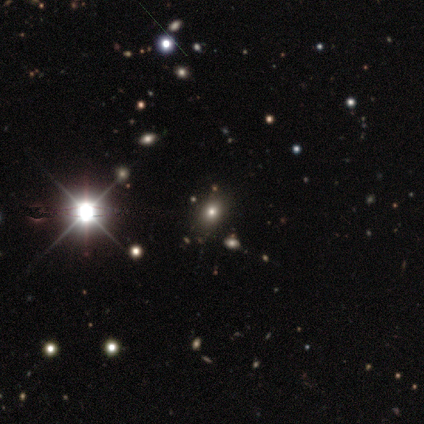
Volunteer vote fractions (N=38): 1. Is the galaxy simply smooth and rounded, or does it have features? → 61% star or artifact, 34% smooth, 5% featured or disk.